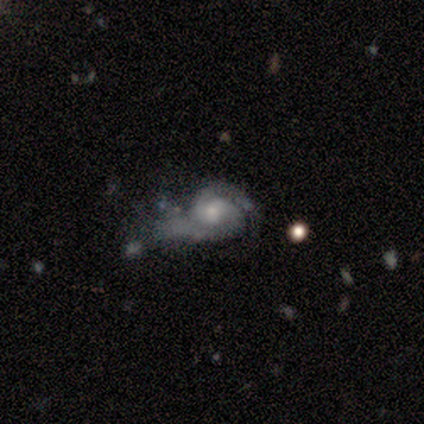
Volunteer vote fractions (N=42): smooth-or-featured: featured or disk: 93% | smooth: 7% | star or artifact: 0%
  disk-edge-on: no: 100% | yes: 0%
    bar: no: 77% | weak: 23% | strong: 0%
    has-spiral-arms: yes: 95% | no: 5%
      spiral-winding: tight: 62% | medium: 32% | loose: 5%
      spiral-arm-count: 2: 95% | 1: 3% | can't tell: 3% | 3: 0% | 4: 0% | more than 4: 0%
    bulge-size: moderate: 46% | small: 31% | large: 15% | none: 8% | dominant: 0%
  merging: major disturbance: 55% | minor disturbance: 21% | none: 17% | merger: 7%